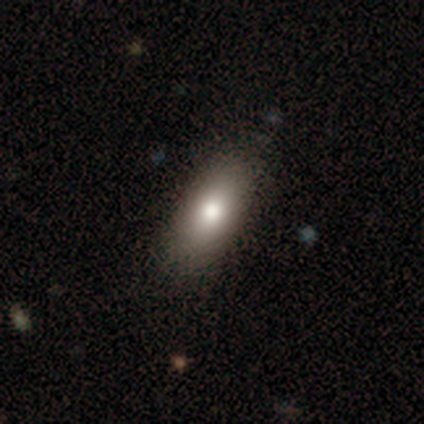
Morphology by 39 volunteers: This is clearly a smooth galaxy (90%). How rounded: likely in between (77%). Merging: clearly none (84%).